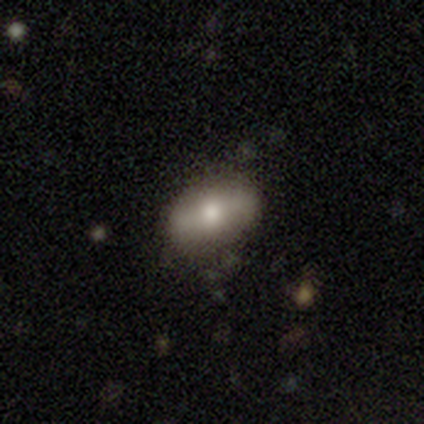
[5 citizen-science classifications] Smooth or featured? smooth (80%)
How rounded? in between (75%)
Merging? none (100%)